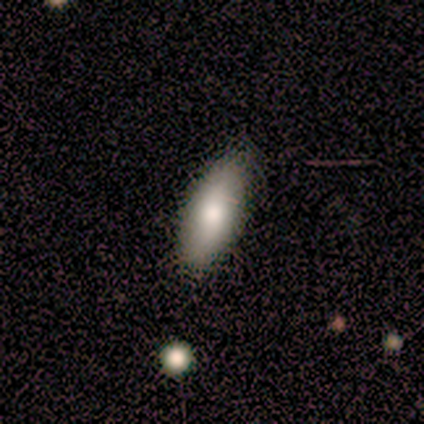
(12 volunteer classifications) Morphology: type=smooth (92%); roundness=in between (64%); merging=none (92%).